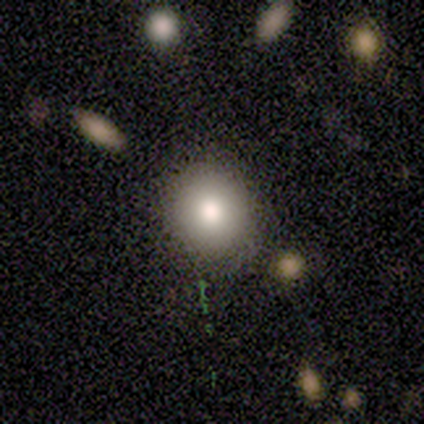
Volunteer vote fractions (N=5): This is clearly a smooth galaxy (80%). How rounded: clearly round (100%). Merging: possibly none (50%, tied with minor disturbance).